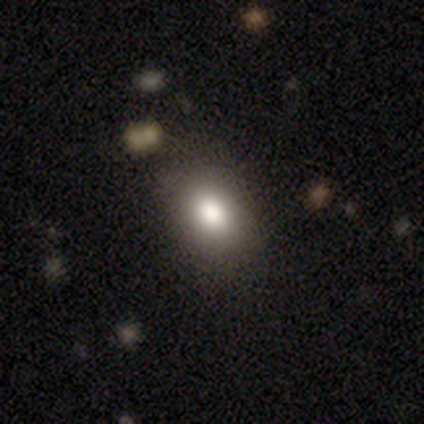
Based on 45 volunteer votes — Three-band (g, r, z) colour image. It shows a smooth galaxy with no disk features (78%) that is in between round and cigar-shaped (69%). Merging: none (86%).